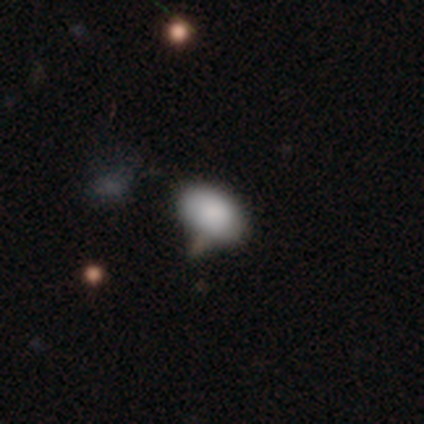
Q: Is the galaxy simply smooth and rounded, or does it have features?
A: smooth — 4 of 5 (80%).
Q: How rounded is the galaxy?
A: in between — 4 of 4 (100%).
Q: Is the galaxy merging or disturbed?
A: none — 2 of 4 (50%).